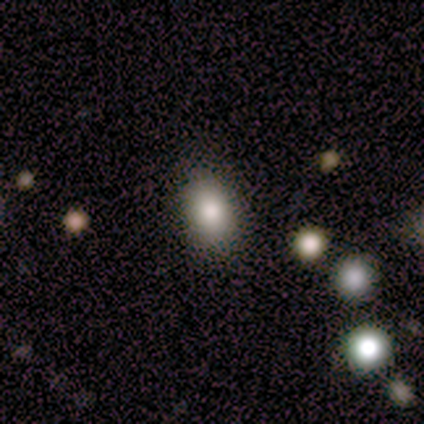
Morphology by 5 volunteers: Q: Smooth or featured?
A: smooth (80%); runner-up: featured or disk (20%)
Q: How rounded?
A: in between (100%)
Q: Merging?
A: none (80%); runner-up: minor disturbance (20%)